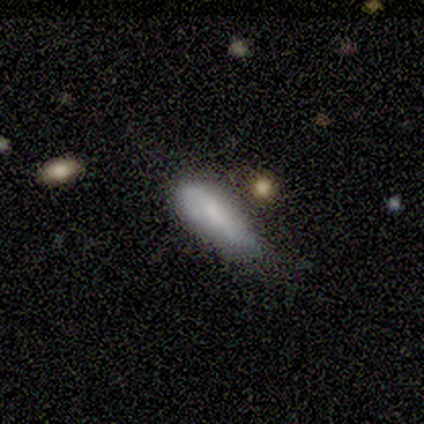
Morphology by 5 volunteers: Overall: smooth (100%). How rounded: in between (100%). Merging: none (40%, tied with minor disturbance).